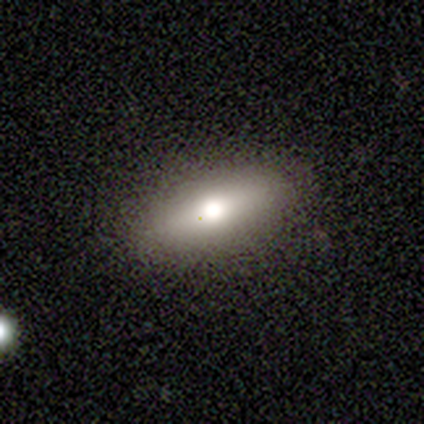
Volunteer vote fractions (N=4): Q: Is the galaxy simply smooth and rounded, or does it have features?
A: smooth — 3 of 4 (75%).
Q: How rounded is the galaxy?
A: in between — 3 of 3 (100%).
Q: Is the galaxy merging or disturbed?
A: none — 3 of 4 (75%).